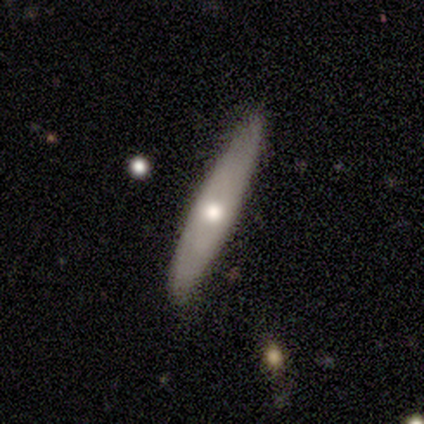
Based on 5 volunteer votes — smooth_or_featured: featured or disk (p=0.60) [alt: smooth p=0.40]
disk_edge_on: yes (p=0.67) [alt: no p=0.33]
edge_on_bulge: none (p=0.50) [tied with: rounded p=0.50]
merging: none (p=1.00)